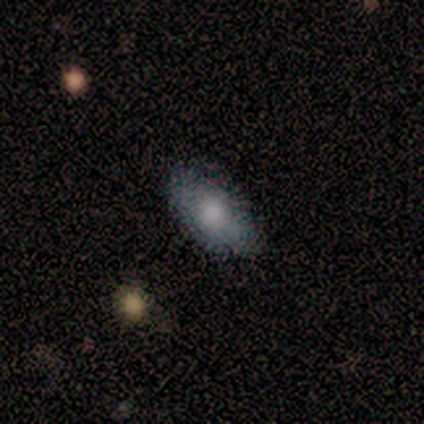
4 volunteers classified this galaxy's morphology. Volunteers were most divided on "smooth or featured": star or artifact: 50%, smooth: 25%, featured or disk: 25%.